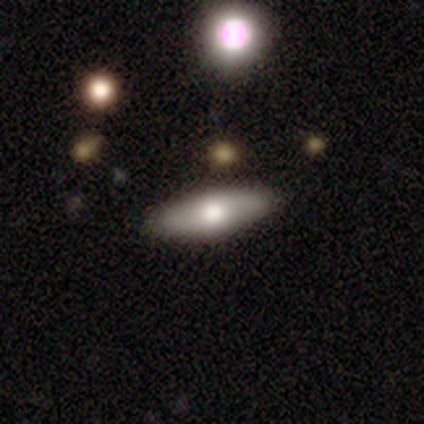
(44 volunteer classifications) Smooth or featured? featured or disk (48%)
Edge-on disk? yes (67%)
Edge-on bulge? rounded (93%)
Merging? none (88%)